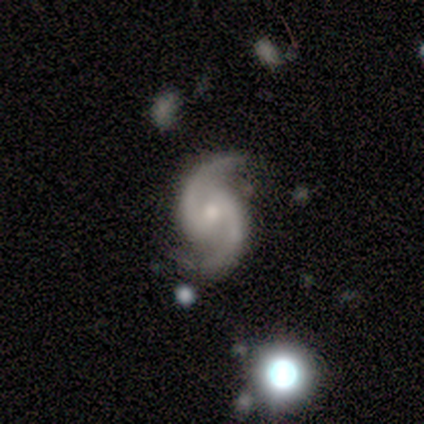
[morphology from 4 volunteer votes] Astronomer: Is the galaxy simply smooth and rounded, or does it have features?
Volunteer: featured or disk — 100%.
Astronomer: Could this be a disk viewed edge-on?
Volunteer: no — 100%.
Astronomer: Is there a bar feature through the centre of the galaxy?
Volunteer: no — 50%.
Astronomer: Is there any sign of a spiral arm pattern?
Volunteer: yes — 100%.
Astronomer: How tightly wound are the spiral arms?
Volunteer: tight — 50%, tied with loose at 50%.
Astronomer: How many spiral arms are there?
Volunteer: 2 — 100%.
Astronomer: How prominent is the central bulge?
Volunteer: moderate — 75%.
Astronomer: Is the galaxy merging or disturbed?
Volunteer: none — 75%.